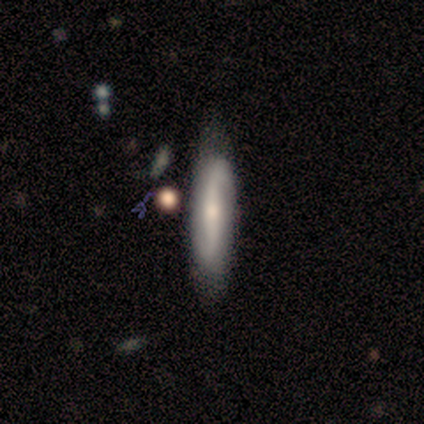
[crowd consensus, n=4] Smooth or featured? featured or disk (75%)
Edge-on disk? no (67%)
Bar? weak (50%, tied with no)
Spiral arms? yes (50%, tied with no)
Spiral winding? loose (100%)
Spiral arm count? 2 (100%)
Bulge size? moderate (50%, tied with small)
Merging? none (100%)